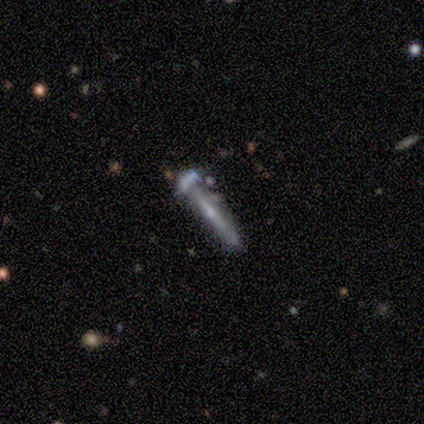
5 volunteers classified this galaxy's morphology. smooth-or-featured: featured or disk: 100% | smooth: 0% | star or artifact: 0%
  disk-edge-on: yes: 80% | no: 20%
    edge-on-bulge: none: 50% (tied) | rounded: 50% (tied) | boxy: 0%
  merging: minor disturbance: 60% | none: 40% | major disturbance: 0% | merger: 0%